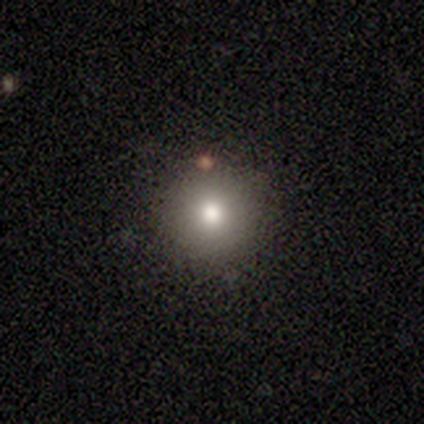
Volunteers were most divided on "how rounded": round: 75%, in between: 25%, cigar-shaped: 0%. More confident: smooth or featured — smooth (80%); merging — none (75%).